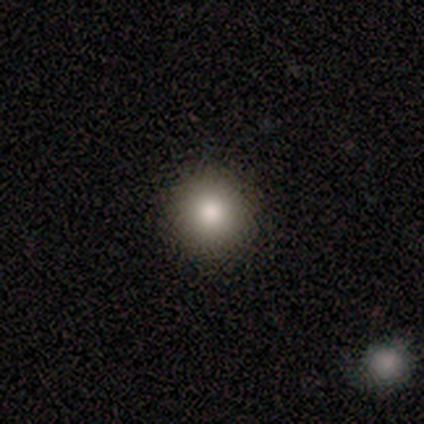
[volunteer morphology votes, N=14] Overall: smooth (93%). How rounded: round (92%). Merging: none (92%).